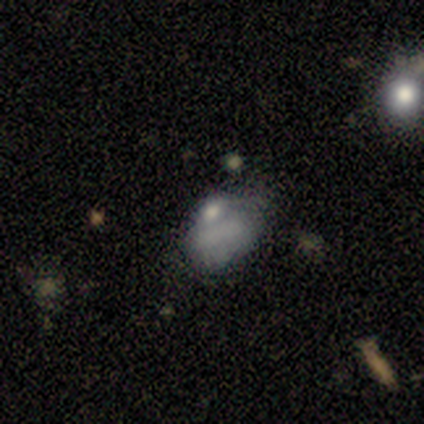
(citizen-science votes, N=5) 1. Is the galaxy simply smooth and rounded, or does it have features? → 80% featured or disk, 20% star or artifact, 0% smooth.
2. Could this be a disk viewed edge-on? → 100% no, 0% yes.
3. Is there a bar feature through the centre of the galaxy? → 100% no, 0% strong, 0% weak.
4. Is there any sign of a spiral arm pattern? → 100% no, 0% yes.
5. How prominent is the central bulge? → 75% none, 25% small, 0% dominant, 0% large, 0% moderate.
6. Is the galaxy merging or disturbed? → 75% minor disturbance, 25% major disturbance, 0% none, 0% merger.